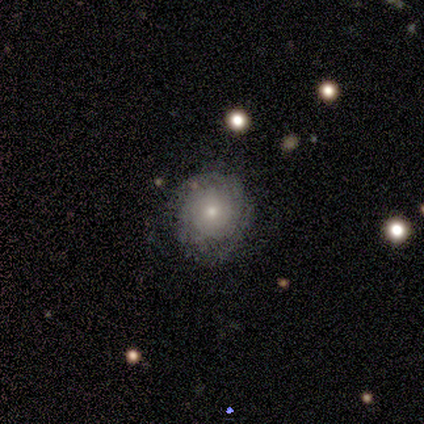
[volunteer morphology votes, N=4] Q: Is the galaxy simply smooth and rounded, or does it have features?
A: featured or disk — 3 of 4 (75%).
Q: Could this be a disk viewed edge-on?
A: no — 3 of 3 (100%).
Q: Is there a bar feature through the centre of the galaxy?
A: no — 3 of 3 (100%).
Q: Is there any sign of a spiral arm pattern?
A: yes — 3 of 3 (100%).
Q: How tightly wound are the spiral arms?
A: tight — 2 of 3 (67%).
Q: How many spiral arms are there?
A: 2 — 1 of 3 (33%, tied with 4 and can't tell).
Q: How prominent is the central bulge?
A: small — 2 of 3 (67%).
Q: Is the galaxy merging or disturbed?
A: none — 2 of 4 (50%).